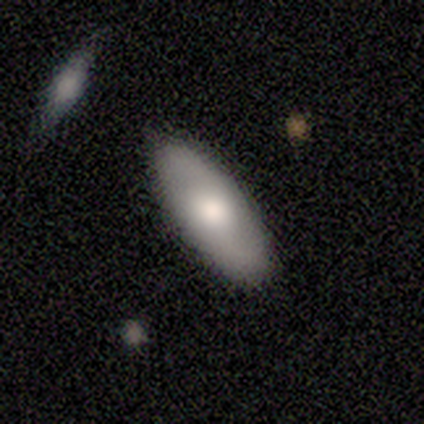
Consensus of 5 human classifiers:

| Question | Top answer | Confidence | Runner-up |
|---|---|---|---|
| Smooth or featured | smooth | 60% | featured or disk (40%) |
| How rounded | in between | 100% | — |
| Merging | none | 100% | — |